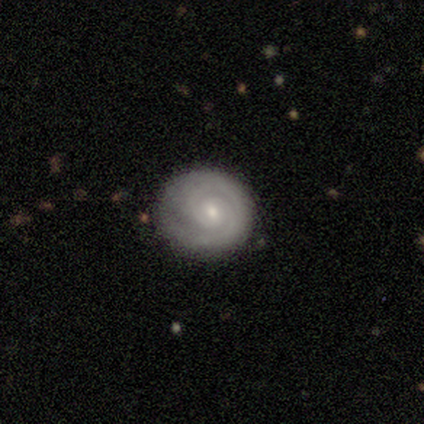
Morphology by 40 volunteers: A featured or disk galaxy (80%) with no bar (80%), 2 (63%) tight (77%) spiral arms (100%) and a small central bulge (60%). Merging: none (77%).